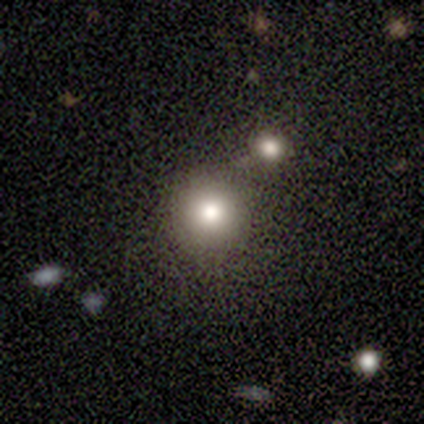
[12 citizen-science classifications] A smooth galaxy with no disk features (83%) that is round (100%).

Vote fractions:
- Smooth or featured? smooth: 83% / featured or disk: 17% / star or artifact: 0%
- How rounded? round: 100% / in between: 0% / cigar-shaped: 0%
- Merging? none: 83% / minor disturbance: 8% / major disturbance: 8% / merger: 0%